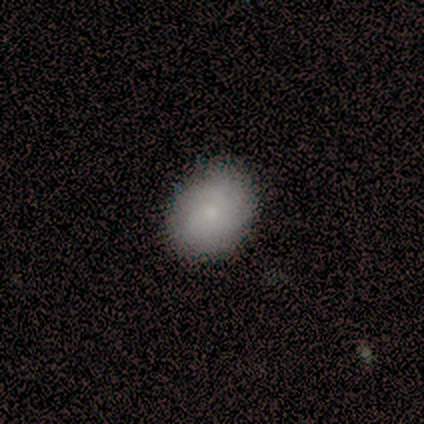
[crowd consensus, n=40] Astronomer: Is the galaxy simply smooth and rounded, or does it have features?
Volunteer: smooth — 78%.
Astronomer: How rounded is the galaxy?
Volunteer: in between — 52% (runner-up: round, 48%).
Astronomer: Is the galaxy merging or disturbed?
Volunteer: none — 57%.